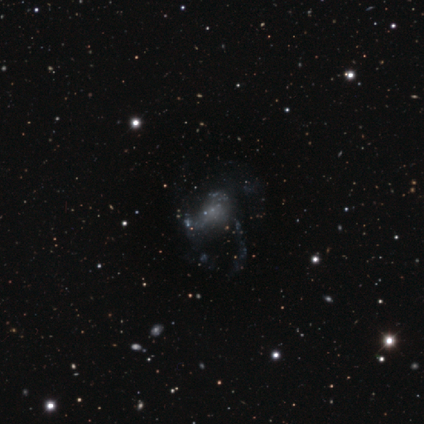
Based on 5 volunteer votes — Smooth or featured? 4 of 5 (80%) said featured or disk. Edge-on disk? 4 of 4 (100%) said no. Bar? 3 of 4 (75%) said no. Spiral arms? 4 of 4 (100%) said no. Bulge size? 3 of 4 (75%) said small. Merging? 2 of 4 (50%) said none.